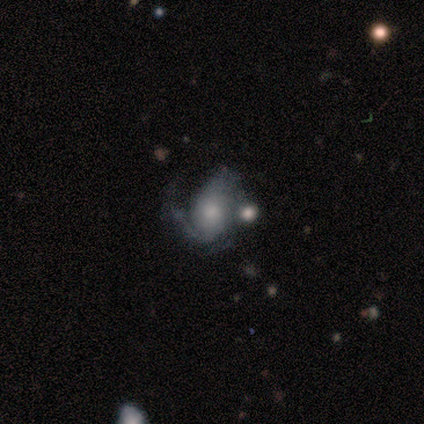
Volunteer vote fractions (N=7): smooth_or_featured: featured or disk (p=0.86) [alt: smooth p=0.14]
disk_edge_on: no (p=1.00)
bar: no (p=0.67) [alt: strong p=0.17]
has_spiral_arms: yes (p=1.00)
spiral_winding: medium (p=0.67) [alt: tight p=0.17]
spiral_arm_count: 2 (p=0.50) [alt: can't tell p=0.33]
bulge_size: small (p=0.83) [alt: dominant p=0.17]
merging: minor disturbance (p=0.43) [alt: none p=0.29]